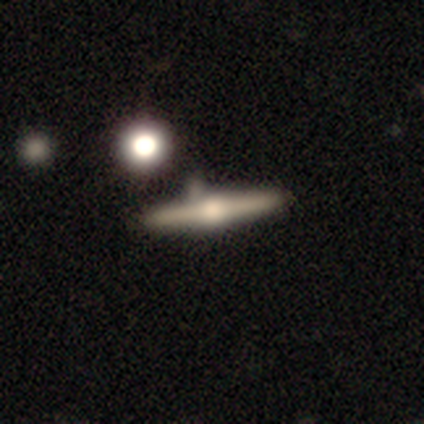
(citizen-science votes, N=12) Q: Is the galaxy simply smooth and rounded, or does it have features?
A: featured or disk — 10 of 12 (83%).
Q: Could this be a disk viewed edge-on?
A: yes — 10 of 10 (100%).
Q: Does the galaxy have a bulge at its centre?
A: rounded — 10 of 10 (100%).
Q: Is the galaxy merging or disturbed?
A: none — 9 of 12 (75%).